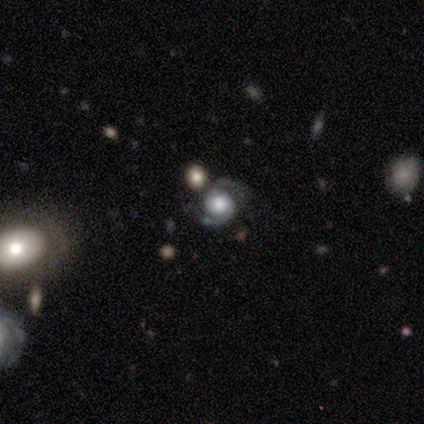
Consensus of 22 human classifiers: Smooth or featured?
  - featured or disk: 77% *
  - star or artifact: 14%
  - smooth: 9%
Edge-on disk?
  - no: 100% *
  - yes: 0%
Bar?
  - no: 76% *
  - weak: 24%
  - strong: 0%
Spiral arms?
  - yes: 100% *
  - no: 0%
Spiral winding?
  - medium: 41% *
  - tight: 29%
  - loose: 29%
Spiral arm count?
  - 2: 100% *
  - 1: 0%
  - 3: 0%
  - 4: 0%
  - more than 4: 0%
  - can't tell: 0%
Bulge size?
  - large: 59% *
  - dominant: 29%
  - moderate: 6%
  - none: 6%
  - small: 0%
Merging?
  - none: 58% *
  - major disturbance: 21%
  - merger: 21%
  - minor disturbance: 0%